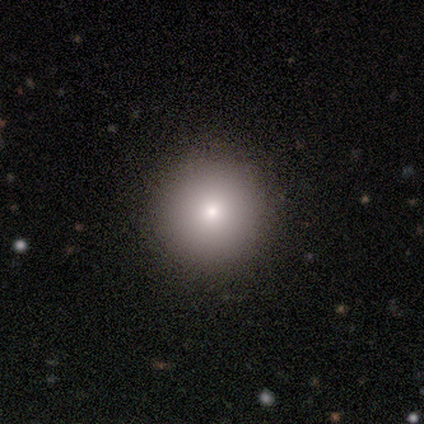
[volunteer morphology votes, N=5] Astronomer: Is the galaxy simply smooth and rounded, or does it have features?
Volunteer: smooth — 80%.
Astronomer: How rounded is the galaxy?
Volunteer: round — 100%.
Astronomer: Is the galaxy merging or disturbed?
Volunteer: none — 100%.